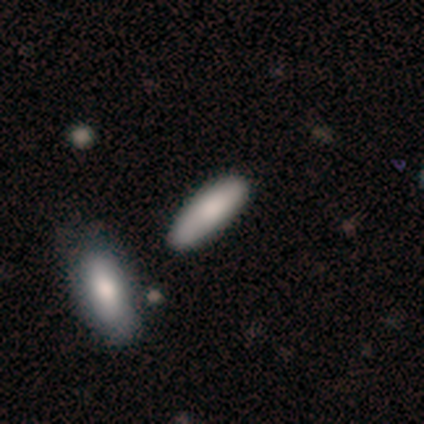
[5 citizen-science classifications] This is clearly a smooth galaxy (100%). How rounded: likely in between (60%). Merging: clearly none (100%).